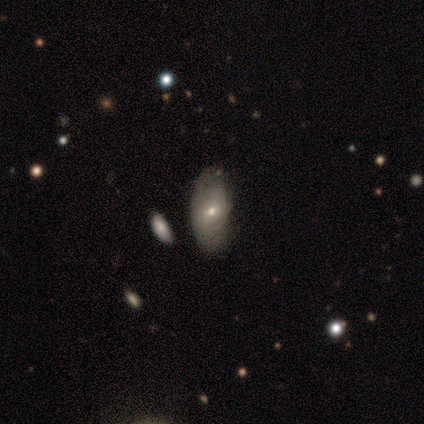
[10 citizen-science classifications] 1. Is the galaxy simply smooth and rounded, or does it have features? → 60% featured or disk, 40% smooth, 0% star or artifact.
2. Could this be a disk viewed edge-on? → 100% no, 0% yes.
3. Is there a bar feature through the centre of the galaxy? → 67% no, 33% weak, 0% strong.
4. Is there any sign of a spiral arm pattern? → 83% yes, 17% no.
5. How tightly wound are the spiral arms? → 60% medium, 40% tight, 0% loose.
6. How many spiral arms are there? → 100% can't tell, 0% 1, 0% 2, 0% 3, 0% 4, 0% more than 4.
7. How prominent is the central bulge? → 83% small, 17% moderate, 0% dominant, 0% large, 0% none.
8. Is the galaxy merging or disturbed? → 70% none, 20% minor disturbance, 10% major disturbance, 0% merger.